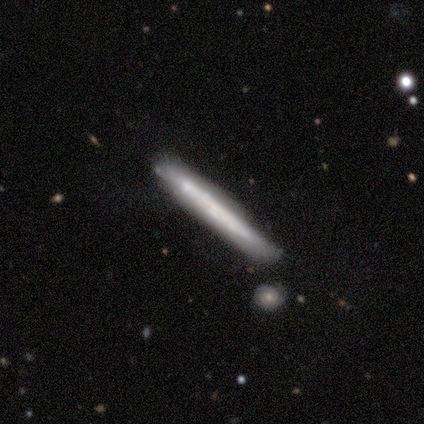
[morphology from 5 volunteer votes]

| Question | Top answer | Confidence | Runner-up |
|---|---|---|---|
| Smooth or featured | smooth | 60% | featured or disk (20%) |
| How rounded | cigar-shaped | 100% | — |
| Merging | none | 50% | minor disturbance (25%) |